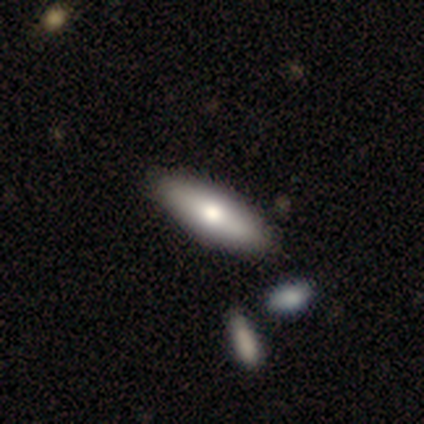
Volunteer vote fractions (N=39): Morphology: type=smooth (64%); roundness=in between (60%); merging=none (62%).